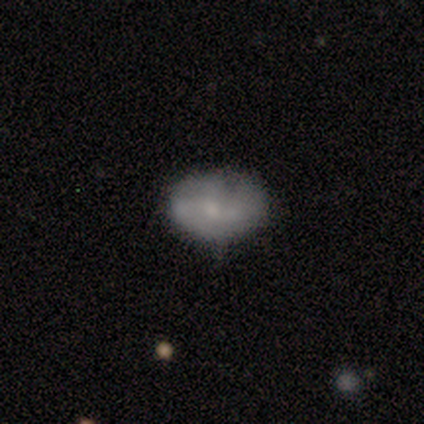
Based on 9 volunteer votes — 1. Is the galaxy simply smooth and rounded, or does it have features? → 78% smooth, 11% featured or disk, 11% star or artifact.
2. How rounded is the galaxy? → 71% in between, 29% round, 0% cigar-shaped.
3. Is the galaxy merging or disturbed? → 62% minor disturbance, 38% none, 0% major disturbance, 0% merger.